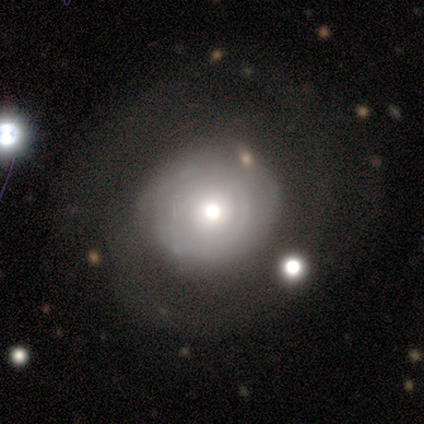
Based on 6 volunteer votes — Smooth or featured? 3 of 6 (50%, tied with featured or disk) said smooth. How rounded? 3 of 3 (100%) said round. Merging? 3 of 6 (50%) said none.